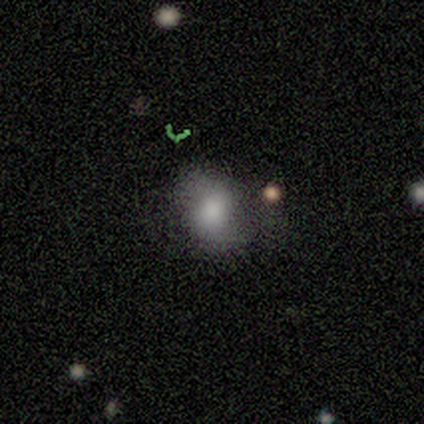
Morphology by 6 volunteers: A smooth galaxy with no disk features (67%) that is in between round and cigar-shaped (75%). Merging: none (50%).